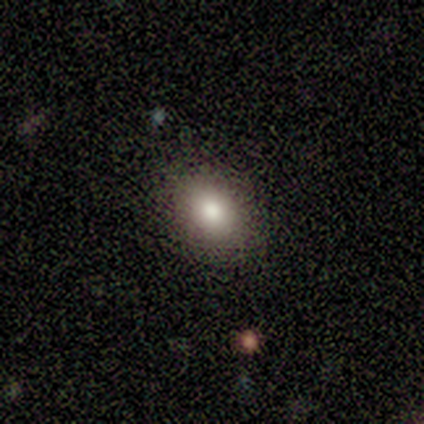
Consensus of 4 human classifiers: This appears to be a smooth galaxy with no disk features (50%) that is round (50%, tied with in between). Merging: none (100%).